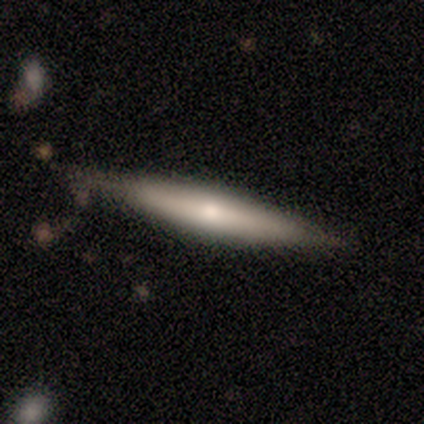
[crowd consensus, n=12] smooth 50% (tied), featured or disk 50% (tied), star or artifact 0%. Down the decision tree: how rounded — cigar-shaped (67%); merging — none (83%).